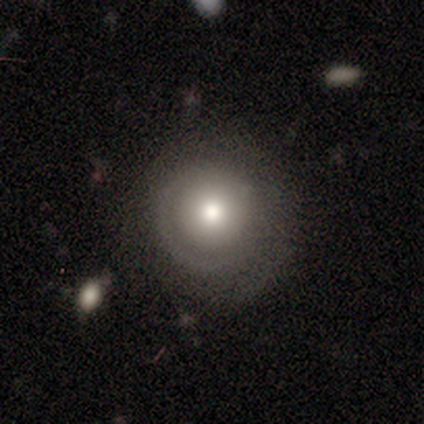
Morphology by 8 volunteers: smooth 62%, featured or disk 38%, star or artifact 0%. Down the decision tree: how rounded — round (100%); merging — none (88%).